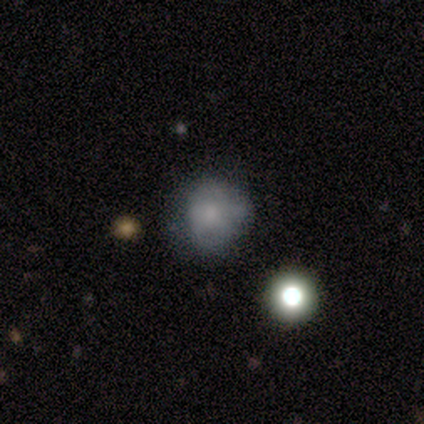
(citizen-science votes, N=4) smooth 100%, featured or disk 0%, star or artifact 0%. Down the decision tree: how rounded — round (75%); merging — none (50%).